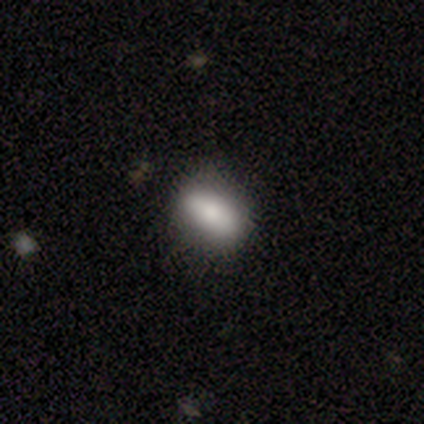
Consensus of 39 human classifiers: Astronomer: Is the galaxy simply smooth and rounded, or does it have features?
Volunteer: smooth — 79%.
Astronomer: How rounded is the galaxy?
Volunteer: in between — 84%.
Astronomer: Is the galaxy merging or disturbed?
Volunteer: none — 81%.